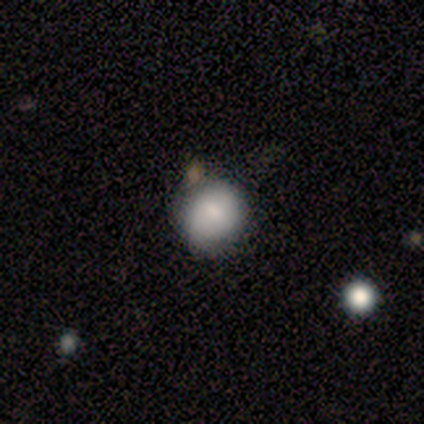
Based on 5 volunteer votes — Smooth or featured? smooth (100%)
How rounded? round (100%)
Merging? none (40%, tied with minor disturbance)